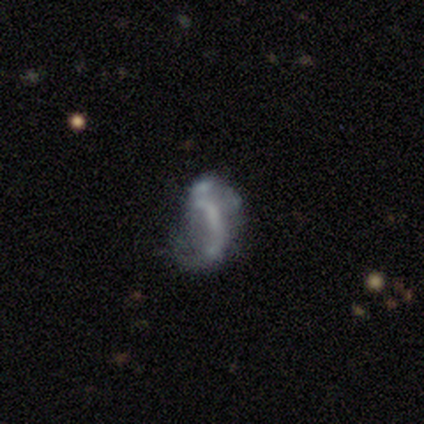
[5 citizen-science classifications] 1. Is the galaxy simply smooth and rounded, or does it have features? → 60% featured or disk, 40% smooth, 0% star or artifact.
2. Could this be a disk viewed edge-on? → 100% no, 0% yes.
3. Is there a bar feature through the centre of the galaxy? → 67% no, 33% weak, 0% strong.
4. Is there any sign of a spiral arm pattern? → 67% yes, 33% no.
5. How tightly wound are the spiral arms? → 50% medium (tied), 50% loose (tied), 0% tight.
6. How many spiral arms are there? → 100% 2, 0% 1, 0% 3, 0% 4, 0% more than 4, 0% can't tell.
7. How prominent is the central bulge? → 33% large (tied), 33% moderate (tied), 33% none (tied), 0% dominant, 0% small.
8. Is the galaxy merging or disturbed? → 60% minor disturbance, 20% none, 20% major disturbance, 0% merger.